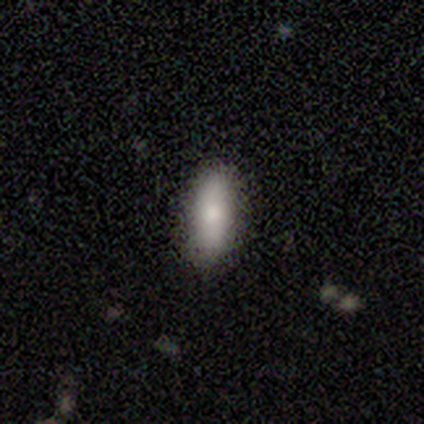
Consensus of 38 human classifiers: smooth 76%, star or artifact 13%, featured or disk 11%. Down the decision tree: how rounded — in between (76%); merging — none (94%).